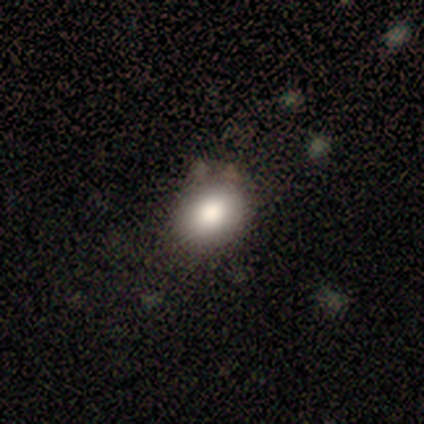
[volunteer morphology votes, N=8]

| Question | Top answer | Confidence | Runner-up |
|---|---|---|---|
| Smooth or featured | smooth | 100% | — |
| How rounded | round | 88% | in between (12%) |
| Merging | none | 62% | minor disturbance (25%) |